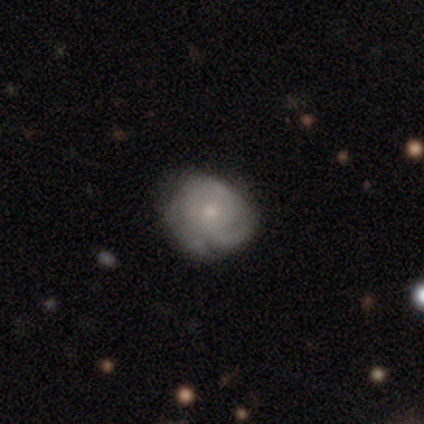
Smooth or featured? 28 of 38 (74%) said featured or disk. Edge-on disk? 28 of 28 (100%) said no. Bar? 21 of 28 (75%) said no. Spiral arms? 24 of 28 (86%) said yes. Spiral winding? 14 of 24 (58%) said tight. Spiral arm count? 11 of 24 (46%) said can't tell. Bulge size? 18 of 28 (64%) said small. Merging? 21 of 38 (55%) said none.